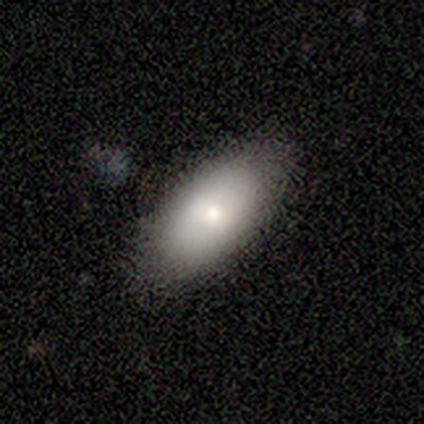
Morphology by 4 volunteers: A smooth galaxy with no disk features (75%) that is in between round and cigar-shaped (100%). Merging: none (100%).